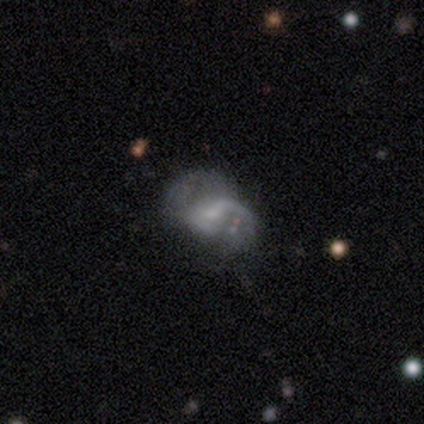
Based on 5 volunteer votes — Smooth or featured? 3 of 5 (60%) said featured or disk. Edge-on disk? 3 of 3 (100%) said no. Bar? 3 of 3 (100%) said no. Spiral arms? 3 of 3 (100%) said yes. Spiral winding? 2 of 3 (67%) said medium. Spiral arm count? 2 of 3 (67%) said 1. Bulge size? 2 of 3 (67%) said small. Merging? 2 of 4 (50%) said major disturbance.